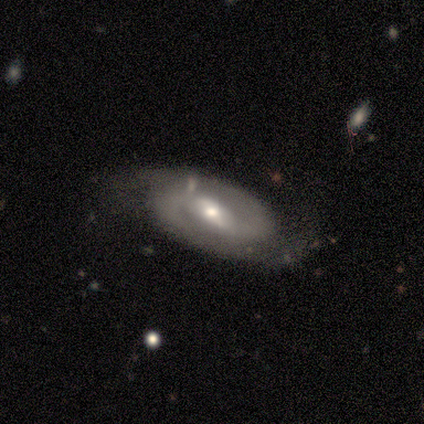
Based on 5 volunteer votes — featured or disk 60%, smooth 40%, star or artifact 0%. Down the decision tree: edge-on disk — no (100%); bar — strong (67%); spiral arms — yes (100%); spiral arm count — 2 (67%); spiral winding — tight (67%); bulge size — small (67%); merging — none (80%).